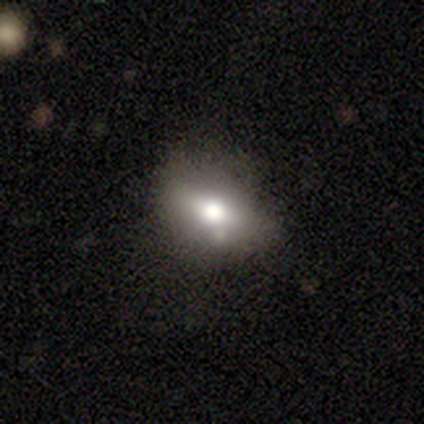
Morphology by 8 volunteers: Smooth or featured: smooth — 88% (featured or disk — 12%)
How rounded: in between — 71% (round — 29%)
Merging: none — 88% (minor disturbance — 12%)